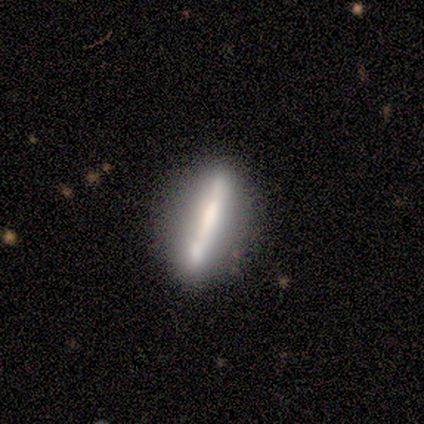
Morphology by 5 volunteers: Overall: smooth (40%, tied with featured or disk). How rounded: in between (50%, tied with cigar-shaped). Merging: none (75%).